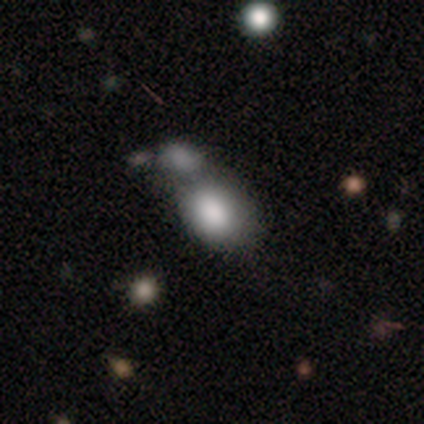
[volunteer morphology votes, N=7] Overall: smooth (71%). How rounded: in between (100%). Merging: merger (71%).